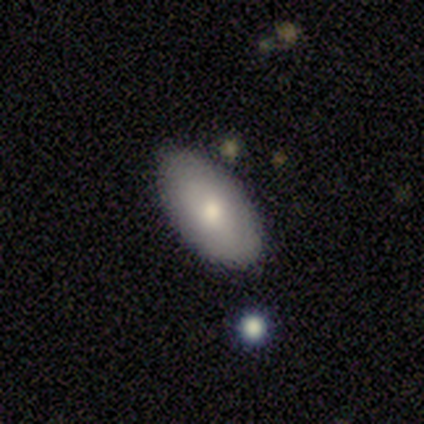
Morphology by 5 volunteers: A smooth galaxy with no disk features (100%) that is in between round and cigar-shaped (100%).

Vote fractions:
- Smooth or featured? smooth: 100% / featured or disk: 0% / star or artifact: 0%
- How rounded? in between: 100% / round: 0% / cigar-shaped: 0%
- Merging? none: 60% / minor disturbance: 40% / major disturbance: 0% / merger: 0%